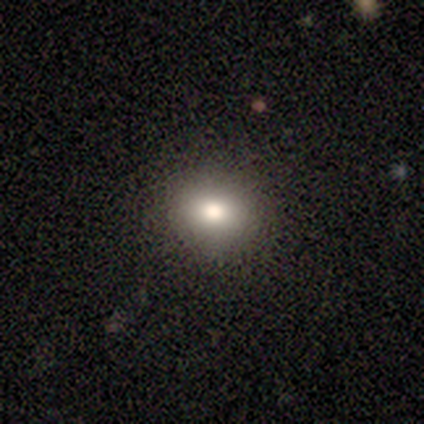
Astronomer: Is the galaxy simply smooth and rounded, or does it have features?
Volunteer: smooth — 100%.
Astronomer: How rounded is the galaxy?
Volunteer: round — 60% (runner-up: in between, 40%).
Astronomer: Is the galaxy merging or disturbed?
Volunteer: none — 80%.